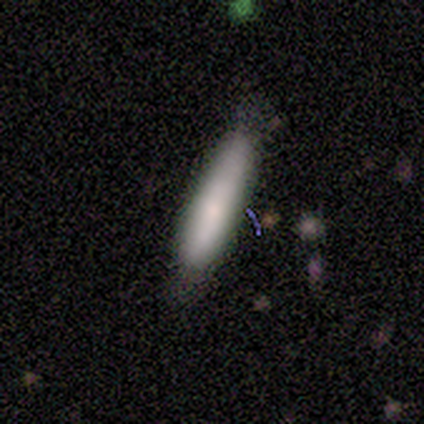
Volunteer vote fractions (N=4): Smooth or featured? featured or disk (50%)
Edge-on disk? yes (50%, tied with no)
Edge-on bulge? rounded (100%)
Merging? minor disturbance (67%)